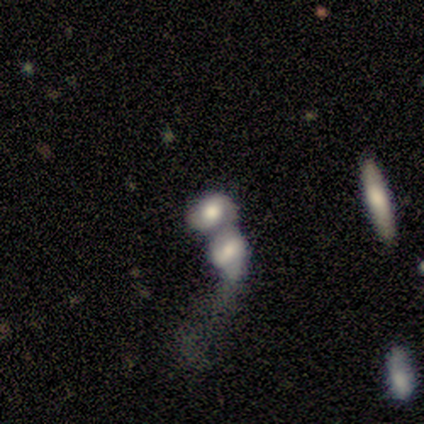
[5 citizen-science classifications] smooth_or_featured: smooth (p=0.80) [alt: featured or disk p=0.20]
how_rounded: in between (p=0.75) [alt: round p=0.25]
merging: merger (p=0.80) [alt: minor disturbance p=0.20]